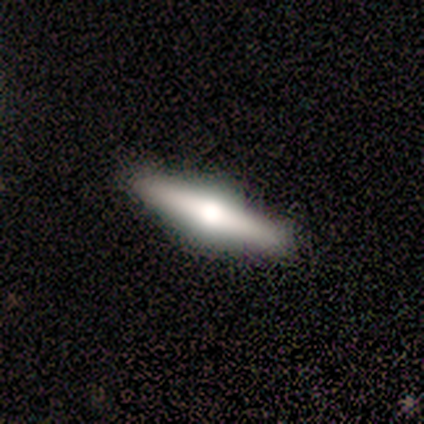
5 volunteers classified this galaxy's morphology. This is likely a smooth galaxy (60%). How rounded: clearly cigar-shaped (100%). Merging: clearly none (80%).